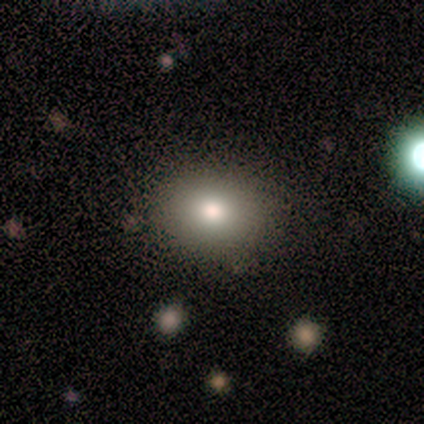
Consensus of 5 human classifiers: Smooth or featured? 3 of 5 (60%) said smooth. How rounded? 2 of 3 (67%) said in between. Merging? 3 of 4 (75%) said none.